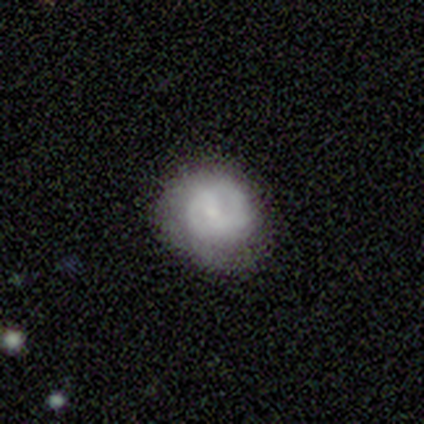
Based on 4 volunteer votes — Q: Smooth or featured?
A: featured or disk (75%); runner-up: smooth (25%)
Q: Edge-on disk?
A: no (100%)
Q: Bar?
A: weak (67%); runner-up: no (33%)
Q: Spiral arms?
A: yes (100%)
Q: Spiral winding?
A: tight (67%); runner-up: medium (33%)
Q: Spiral arm count?
A: 2 (100%)
Q: Bulge size?
A: small (100%)
Q: Merging?
A: none (75%); runner-up: minor disturbance (25%)